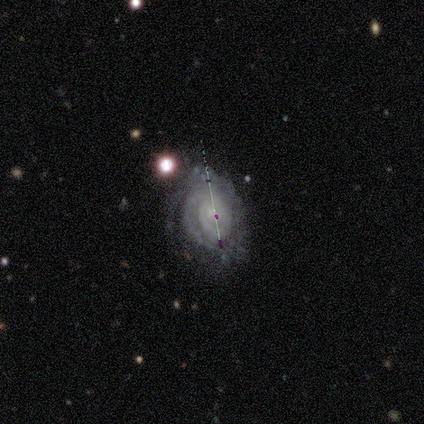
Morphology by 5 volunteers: Overall: featured or disk (100%). Edge-on disk: no (100%). Bar: no (60%; weak 40%). Spiral arms: yes (100%). Spiral arm count: 1 (20%, tied with 2, 3, 4 and can't tell). Spiral winding: tight (60%; medium 40%). Bulge size: small (40%, tied with none). Merging: none (60%; major disturbance 20%).